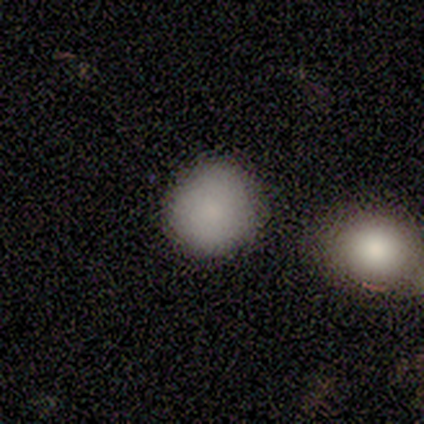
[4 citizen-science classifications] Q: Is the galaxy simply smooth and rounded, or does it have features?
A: smooth — 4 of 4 (100%).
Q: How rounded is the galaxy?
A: round — 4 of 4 (100%).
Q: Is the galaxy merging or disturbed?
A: none — 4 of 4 (100%).